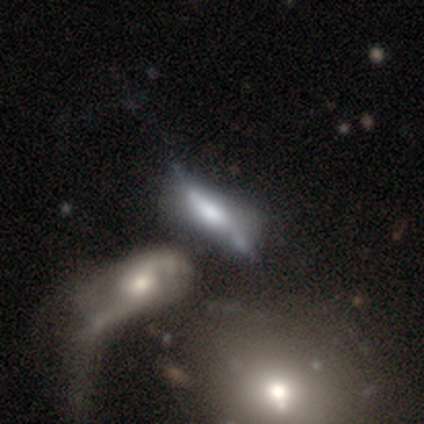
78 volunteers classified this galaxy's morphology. This appears to be a featured or disk galaxy (60%) viewed edge-on (55%) with a boxy central bulge (42%, tied with rounded). Merging: merger (40%).